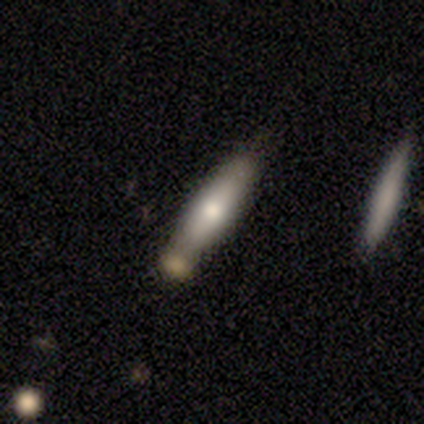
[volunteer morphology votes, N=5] This is clearly a smooth galaxy (80%). How rounded: likely cigar-shaped (75%). Merging: marginally none (40%, tied with merger).